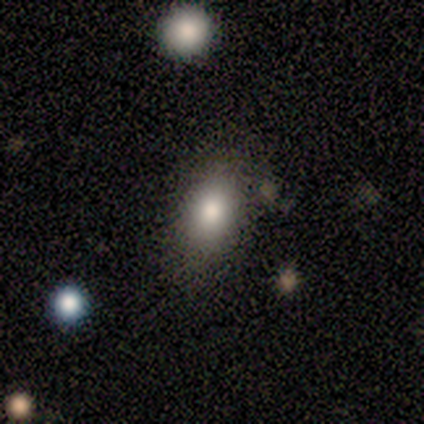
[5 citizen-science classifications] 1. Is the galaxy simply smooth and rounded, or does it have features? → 80% smooth, 20% star or artifact, 0% featured or disk.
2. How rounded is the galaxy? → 100% in between, 0% round, 0% cigar-shaped.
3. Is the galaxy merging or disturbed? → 75% none, 25% merger, 0% minor disturbance, 0% major disturbance.